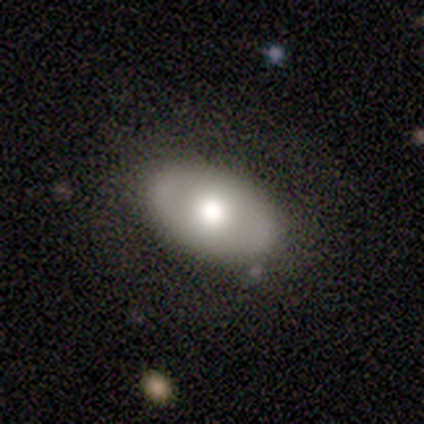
smooth 71%, featured or disk 29%, star or artifact 0%. Down the decision tree: how rounded — in between (100%); merging — none (57%).